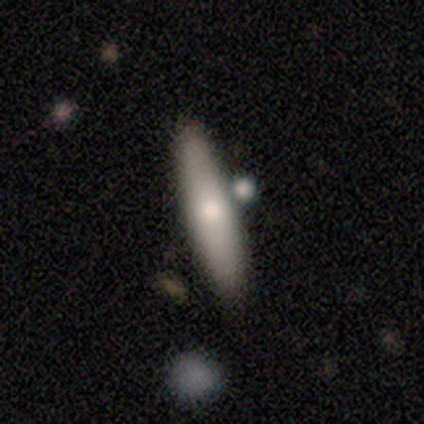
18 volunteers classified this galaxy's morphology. Smooth or featured? smooth (67%)
How rounded? cigar-shaped (67%)
Merging? none (94%)